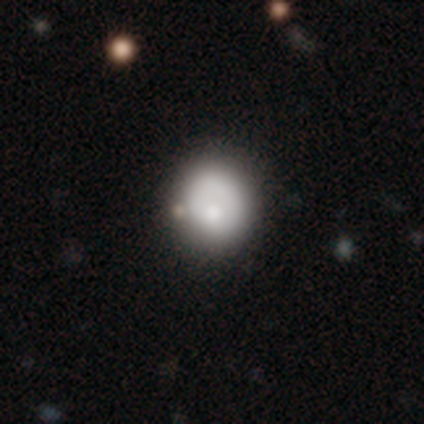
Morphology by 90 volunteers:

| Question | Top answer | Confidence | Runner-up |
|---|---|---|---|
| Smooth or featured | smooth | 71% | featured or disk (17%) |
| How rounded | round | 86% | in between (14%) |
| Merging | none | 71% | minor disturbance (22%) |